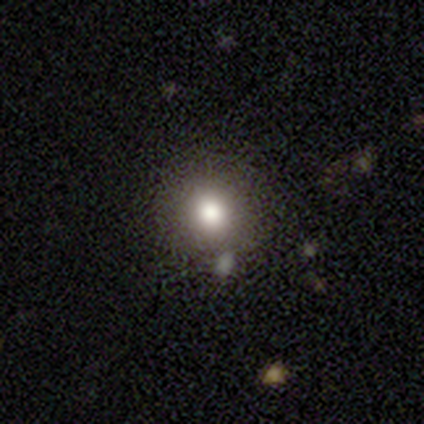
smooth_or_featured: smooth (p=0.80) [alt: featured or disk p=0.20]
how_rounded: round (p=1.00)
merging: none (p=0.80) [alt: merger p=0.20]